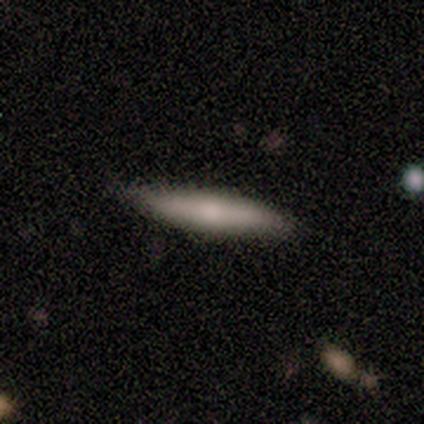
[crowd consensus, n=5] Smooth or featured: smooth — 60% (featured or disk — 40%)
How rounded: cigar-shaped — 100%
Merging: none — 80% (minor disturbance — 20%)